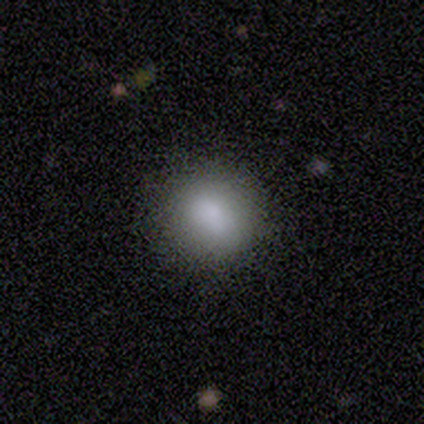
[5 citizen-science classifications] smooth_or_featured: smooth (p=0.60) [alt: featured or disk p=0.20]
how_rounded: round (p=1.00)
merging: none (p=1.00)